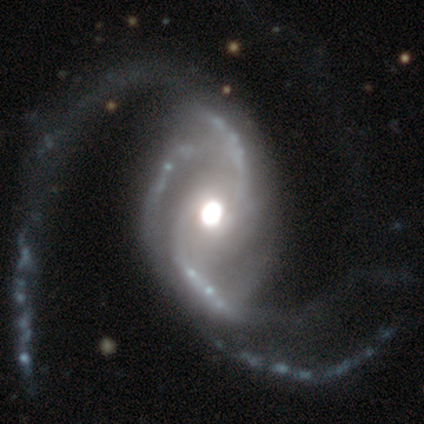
Smooth or featured?
  - featured or disk: 98% *
  - smooth: 2%
  - star or artifact: 0%
Edge-on disk?
  - no: 97% *
  - yes: 3%
Bar?
  - no: 76% *
  - strong: 16%
  - weak: 8%
Spiral arms?
  - yes: 100% *
  - no: 0%
Spiral winding?
  - loose: 63% *
  - medium: 24%
  - tight: 13%
Spiral arm count?
  - 2: 45% *
  - 3: 39%
  - 4: 8%
  - can't tell: 5%
  - more than 4: 3%
  - 1: 0%
Bulge size?
  - moderate: 63% *
  - large: 26%
  - dominant: 5%
  - small: 5%
  - none: 0%
Merging?
  - none: 32% *
  - major disturbance: 15%
  - merger: 5%
  - minor disturbance: 2%